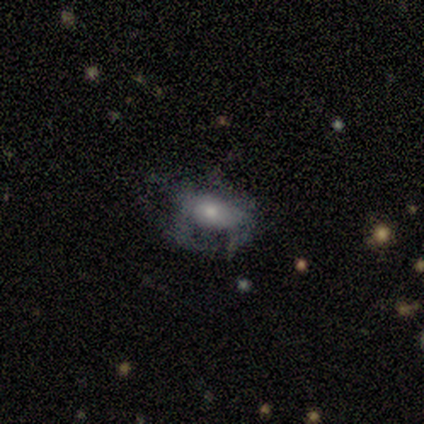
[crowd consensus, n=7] Overall: featured or disk (57%; smooth 43%). Edge-on disk: no (100%). Bar: no (100%). Spiral arms: no (75%). Bulge size: moderate (75%). Merging: none (43%, tied with major disturbance).